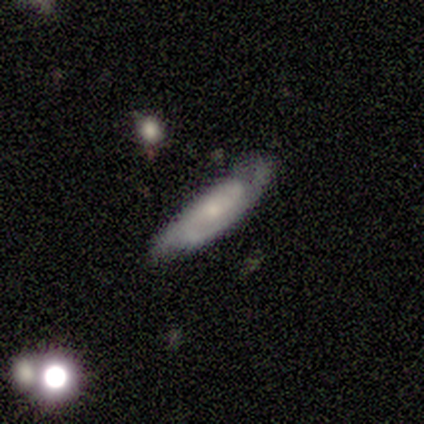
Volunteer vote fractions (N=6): Q: Smooth or featured?
A: featured or disk (50%); runner-up: smooth (33%)
Q: Edge-on disk?
A: yes (67%); runner-up: no (33%)
Q: Edge-on bulge?
A: none (100%)
Q: Merging?
A: minor disturbance (60%); runner-up: none (40%)